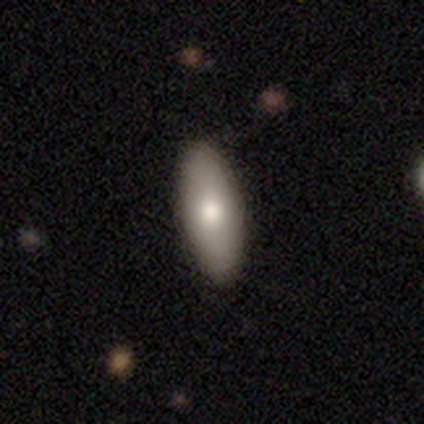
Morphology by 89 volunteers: Smooth or featured: smooth — 70% (featured or disk — 26%)
How rounded: in between — 58% (cigar-shaped — 42%)
Merging: none — 87% (minor disturbance — 9%)